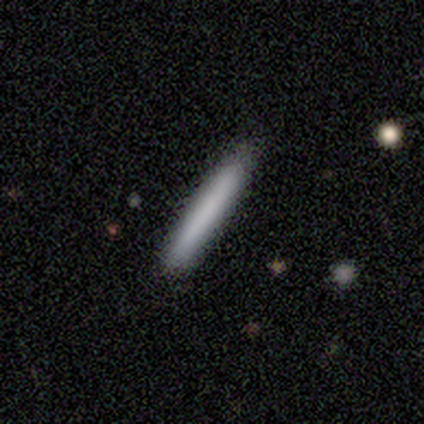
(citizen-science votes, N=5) Q: Smooth or featured?
A: smooth (100%)
Q: How rounded?
A: cigar-shaped (100%)
Q: Merging?
A: none (100%)